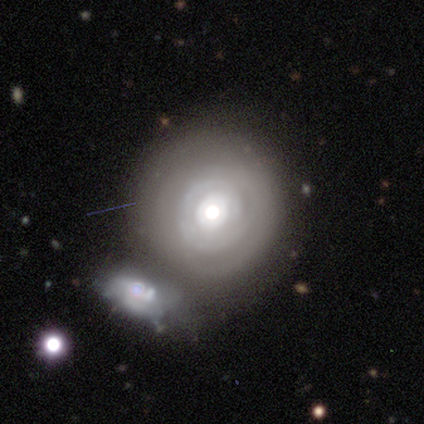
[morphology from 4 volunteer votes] smooth_or_featured: featured or disk (p=0.75) [alt: smooth p=0.25]
disk_edge_on: no (p=1.00)
bar: no (p=1.00)
has_spiral_arms: yes (p=0.67) [alt: no p=0.33]
spiral_winding: tight (p=0.50) [tied with: loose p=0.50]
spiral_arm_count: can't tell (p=1.00)
bulge_size: moderate (p=0.67) [alt: small p=0.33]
merging: none (p=0.75) [alt: merger p=0.25]